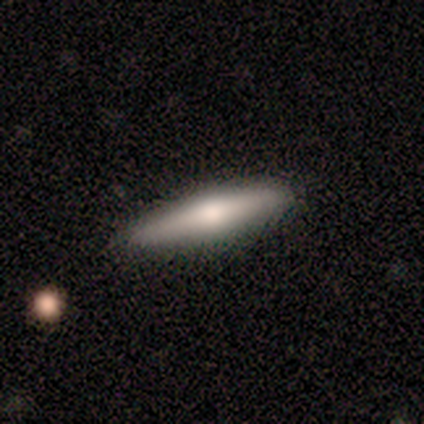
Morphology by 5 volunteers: smooth-or-featured: smooth: 60% | featured or disk: 40% | star or artifact: 0%
  how-rounded: cigar-shaped: 100% | round: 0% | in between: 0%
  merging: none: 80% | minor disturbance: 20% | major disturbance: 0% | merger: 0%